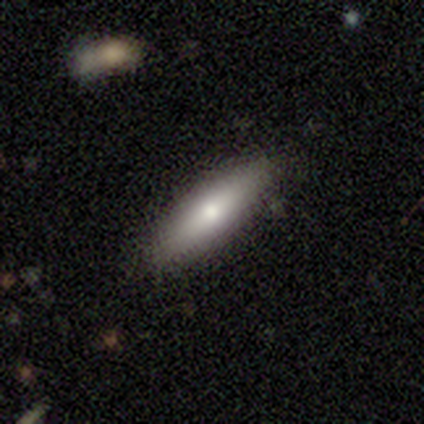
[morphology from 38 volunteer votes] type=smooth (68%); roundness=cigar-shaped (73%); merging=none (80%).